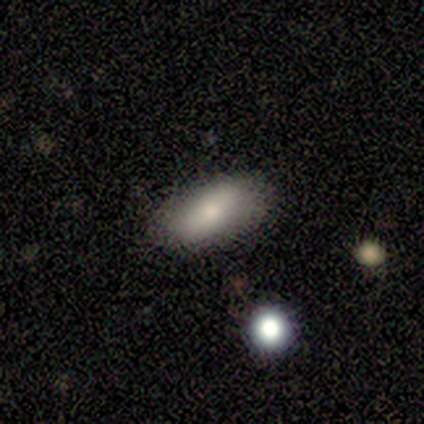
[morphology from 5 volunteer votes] This appears to be a smooth galaxy with no disk features (100%) that is in between round and cigar-shaped (100%). Merging: none (100%).